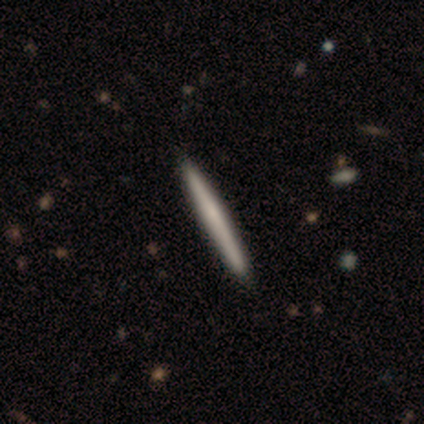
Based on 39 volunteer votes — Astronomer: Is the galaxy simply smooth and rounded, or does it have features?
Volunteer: smooth — 74%.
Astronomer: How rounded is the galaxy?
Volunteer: cigar-shaped — 100%.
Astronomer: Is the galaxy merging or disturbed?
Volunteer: none — 68%.